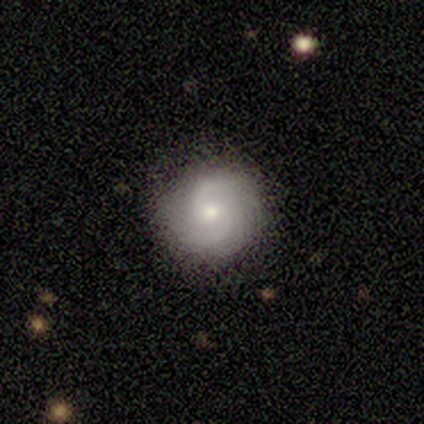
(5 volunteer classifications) Overall: featured or disk (80%). Edge-on disk: no (100%). Bar: weak (50%, tied with no). Spiral arms: yes (75%). Spiral arm count: 2 (67%; can't tell 33%). Spiral winding: tight (33%, tied with medium and loose). Bulge size: moderate (75%). Merging: none (100%).